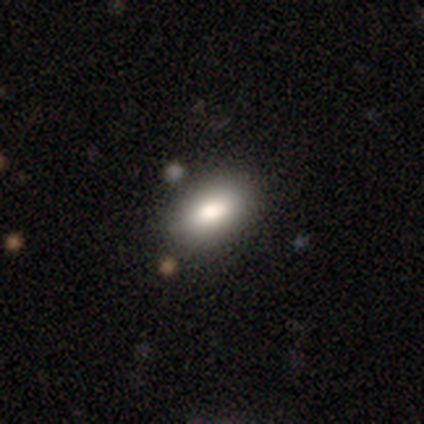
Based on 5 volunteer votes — Morphology: type=smooth (40%, tied with star or artifact); roundness=in between (100%); merging=none (100%).